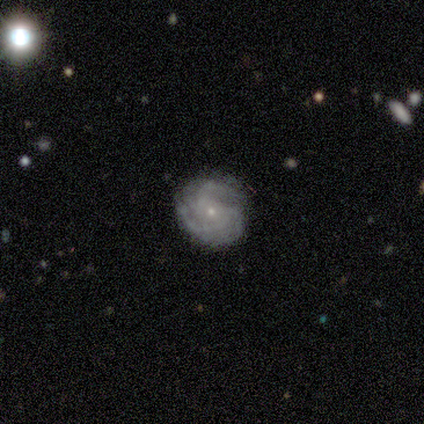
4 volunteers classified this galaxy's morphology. featured or disk 100%, smooth 0%, star or artifact 0%. Down the decision tree: edge-on disk — no (100%); bar — no (50%); spiral arms — yes (100%); spiral arm count — 3 (100%); spiral winding — tight (50%, tied with medium); bulge size — small (100%); merging — none (100%).